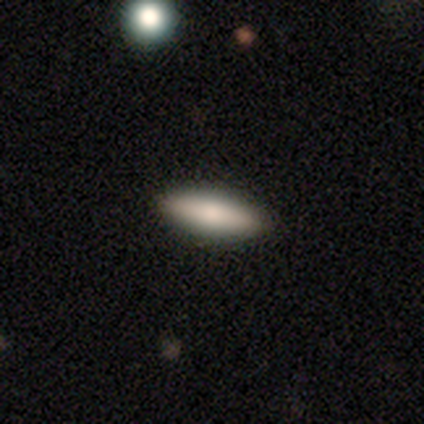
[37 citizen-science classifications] Volunteers were most divided on "how rounded": in between: 54%, cigar-shaped: 43%, round: 4%. More confident: merging — none (85%); smooth or featured — smooth (76%).